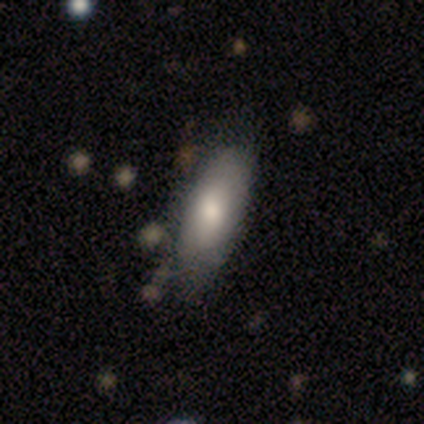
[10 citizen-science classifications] Q: Smooth or featured?
A: smooth (80%); runner-up: featured or disk (20%)
Q: How rounded?
A: in between (100%)
Q: Merging?
A: none (40%); tied with: minor disturbance (40%)